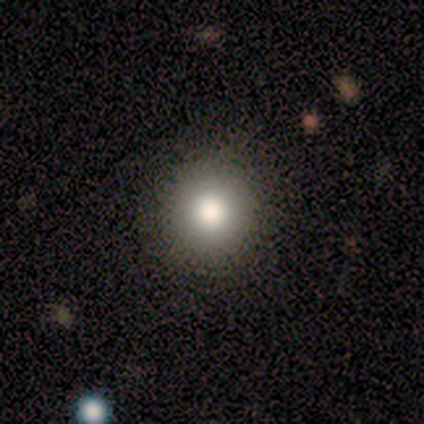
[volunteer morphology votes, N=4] Smooth or featured: smooth — 75% (star or artifact — 25%)
How rounded: round — 100%
Merging: none — 100%